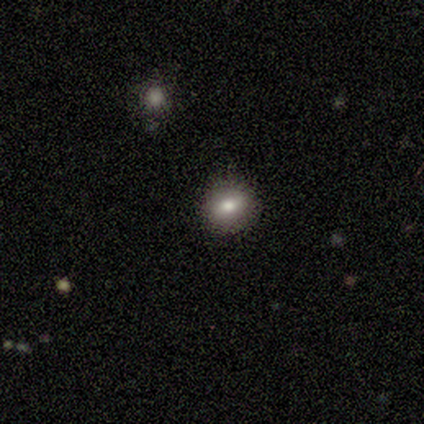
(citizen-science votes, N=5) Smooth or featured?
  - smooth: 60% *
  - featured or disk: 40%
  - star or artifact: 0%
How rounded?
  - in between: 67% *
  - round: 33%
  - cigar-shaped: 0%
Merging?
  - none: 80% *
  - minor disturbance: 20%
  - major disturbance: 0%
  - merger: 0%